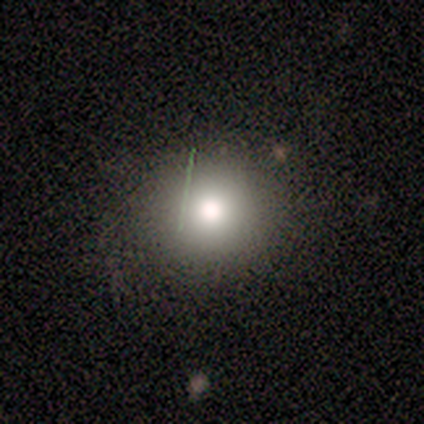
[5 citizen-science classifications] A star or artifact, not a galaxy (80%).

Vote fractions:
- Smooth or featured? star or artifact: 80% / smooth: 20% / featured or disk: 0%